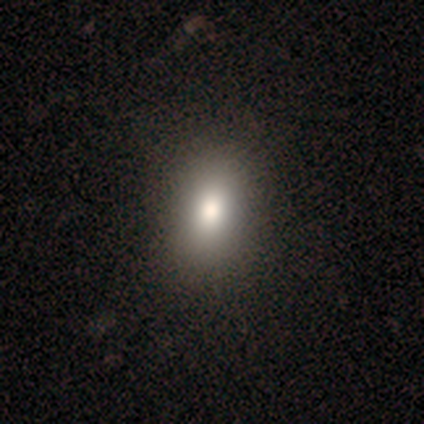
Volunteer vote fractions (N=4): Smooth or featured?
  - smooth: 50% *
  - featured or disk: 25%
  - star or artifact: 25%
How rounded?
  - round: 50% * (tied)
  - in between: 50% * (tied)
  - cigar-shaped: 0%
Merging?
  - none: 67% *
  - major disturbance: 33%
  - minor disturbance: 0%
  - merger: 0%